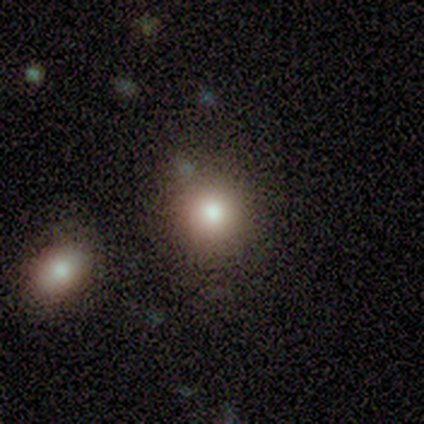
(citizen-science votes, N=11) Overall: smooth (64%; star or artifact 27%). How rounded: round (100%). Merging: none (75%).